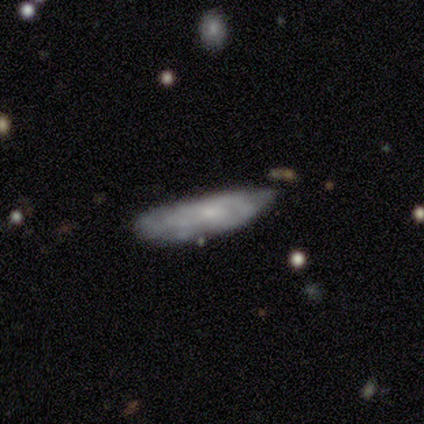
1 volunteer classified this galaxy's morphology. Smooth or featured?
  - smooth: 100% *
  - featured or disk: 0%
  - star or artifact: 0%
How rounded?
  - in between: 100% *
  - round: 0%
  - cigar-shaped: 0%
Merging?
  - minor disturbance: 100% *
  - none: 0%
  - major disturbance: 0%
  - merger: 0%